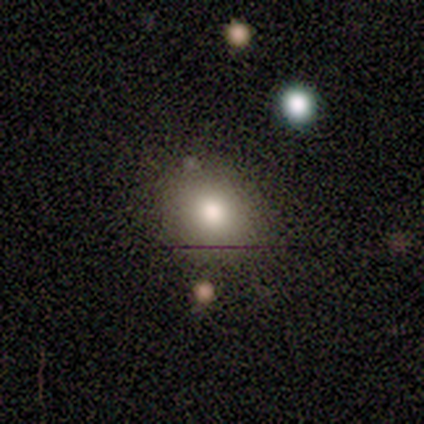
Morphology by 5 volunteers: This is likely a smooth galaxy (60%). How rounded: clearly in between (100%). Merging: likely none (67%).